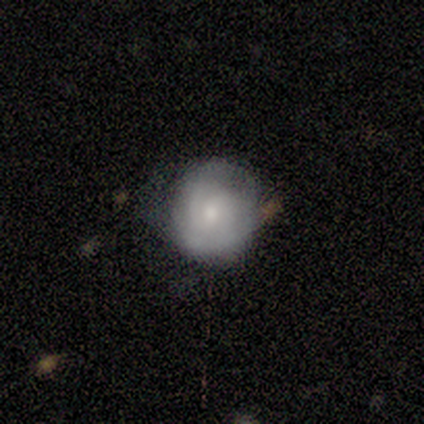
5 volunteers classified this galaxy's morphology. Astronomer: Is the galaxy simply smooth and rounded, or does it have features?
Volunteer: smooth — 80%.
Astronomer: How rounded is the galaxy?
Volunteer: round — 100%.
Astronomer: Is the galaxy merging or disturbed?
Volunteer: minor disturbance — 60% (runner-up: none, 40%).